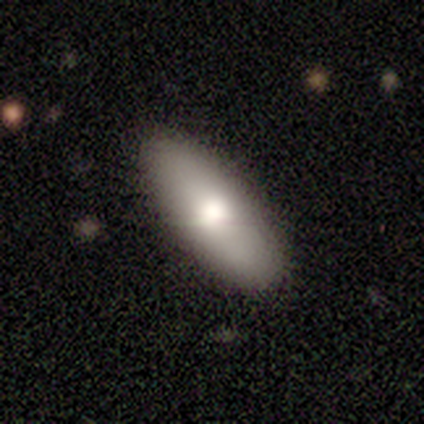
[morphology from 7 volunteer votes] Volunteers were most divided on "how rounded": in between: 83%, cigar-shaped: 17%, round: 0%. More confident: smooth or featured — smooth (86%); merging — none (86%).